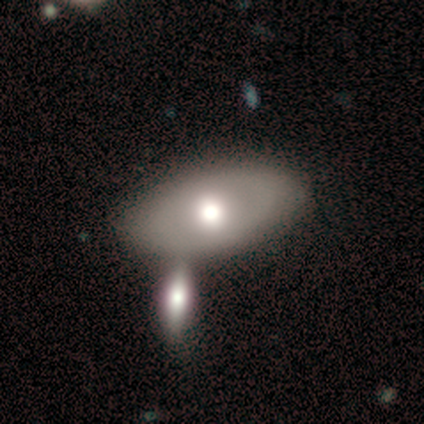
Volunteers were most divided on "smooth or featured": featured or disk: 60%, smooth: 40%, star or artifact: 0%. More confident: edge-on disk — no (100%); spiral arms — no (100%); bar — no (67%); bulge size — moderate (67%); merging — none (60%).